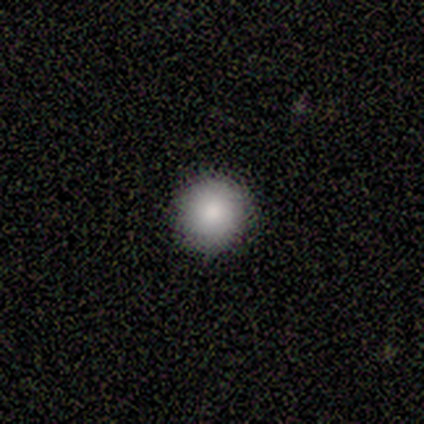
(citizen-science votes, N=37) Smooth or featured?
  - smooth: 76% *
  - star or artifact: 16%
  - featured or disk: 8%
How rounded?
  - round: 100% *
  - in between: 0%
  - cigar-shaped: 0%
Merging?
  - none: 87% *
  - minor disturbance: 10%
  - major disturbance: 3%
  - merger: 0%